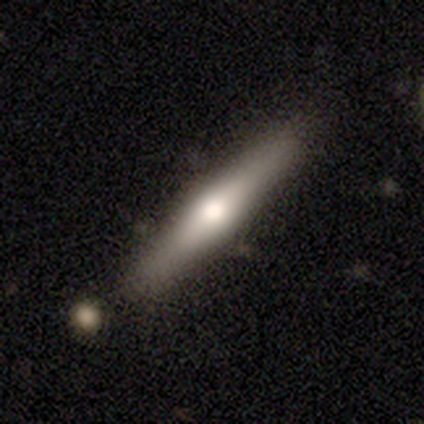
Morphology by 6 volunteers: Smooth or featured: featured or disk — 83% (smooth — 17%)
Edge-on disk: yes — 100%
Edge-on bulge: rounded — 60% (boxy — 20%)
Merging: none — 100%